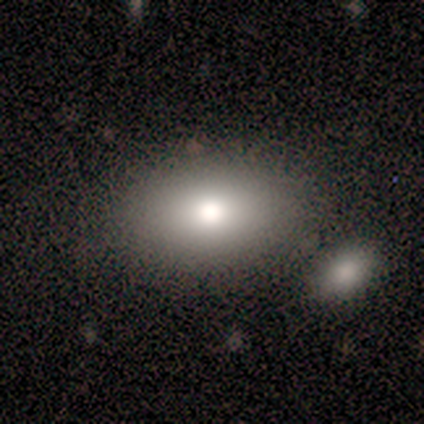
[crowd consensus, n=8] smooth 88%, star or artifact 12%, featured or disk 0%. Down the decision tree: how rounded — in between (86%); merging — none (86%).